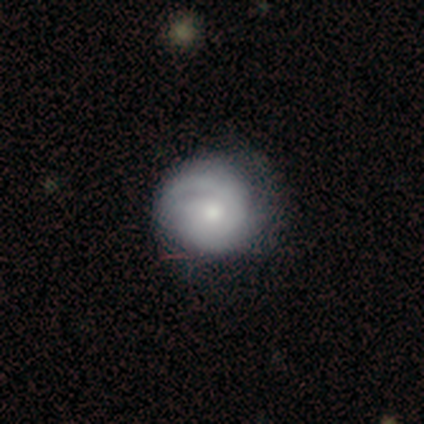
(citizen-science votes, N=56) featured or disk 79%, smooth 18%, star or artifact 4%. Down the decision tree: edge-on disk — no (98%); bar — no (81%); spiral arms — yes (91%); spiral arm count — 2 (49%); spiral winding — tight (74%); bulge size — moderate (58%); merging — none (69%).